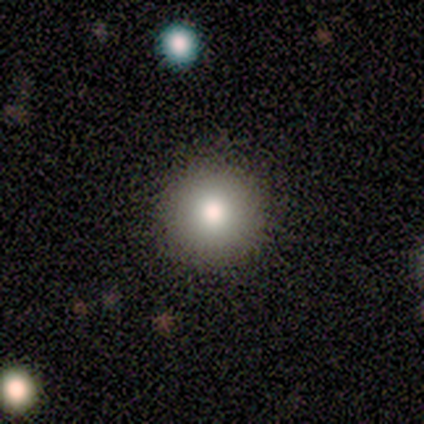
A smooth galaxy with no disk features (80%) that is round (100%).

Vote fractions:
- Smooth or featured? smooth: 80% / star or artifact: 20% / featured or disk: 0%
- How rounded? round: 100% / in between: 0% / cigar-shaped: 0%
- Merging? none: 100% / minor disturbance: 0% / major disturbance: 0% / merger: 0%